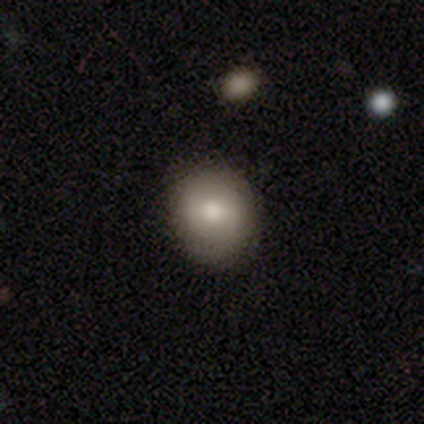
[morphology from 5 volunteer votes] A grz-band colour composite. It shows a smooth galaxy with no disk features (80%) that is round (75%). Merging: none (60%).